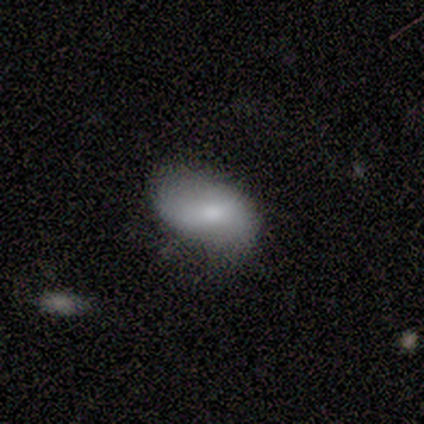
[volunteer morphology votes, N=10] Volunteers were most divided on "bar" (2-way tie): strong: 40%, no: 40%, weak: 20%; "bulge size" (2-way tie): moderate: 40%, small: 40%, large: 20%, dominant: 0%, none: 0%. More confident: edge-on disk — no (83%); merging — none (67%); spiral arms — no (60%); smooth or featured — featured or disk (60%).